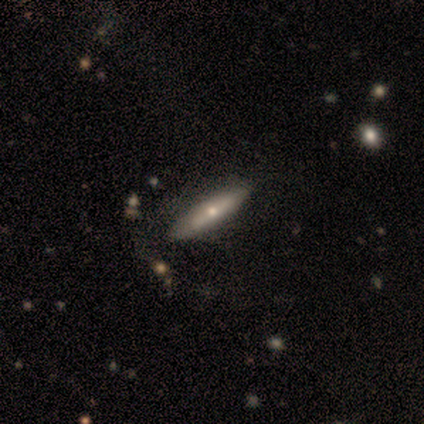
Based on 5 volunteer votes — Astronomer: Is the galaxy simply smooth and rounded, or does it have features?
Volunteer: smooth — 60% (runner-up: featured or disk, 40%).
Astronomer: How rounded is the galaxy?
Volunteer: cigar-shaped — 100%.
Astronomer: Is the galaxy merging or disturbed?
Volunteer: minor disturbance — 60% (runner-up: none, 40%).